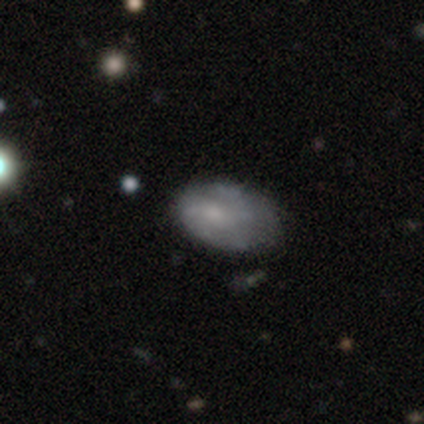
smooth_or_featured: smooth (p=0.54) [alt: featured or disk p=0.46]
how_rounded: in between (p=0.91) [alt: round p=0.05]
merging: none (p=0.59) [alt: minor disturbance p=0.32]